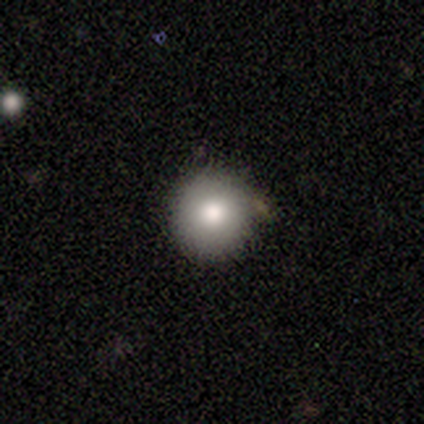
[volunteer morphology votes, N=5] Smooth or featured?
  - smooth: 100% *
  - featured or disk: 0%
  - star or artifact: 0%
How rounded?
  - round: 100% *
  - in between: 0%
  - cigar-shaped: 0%
Merging?
  - none: 100% *
  - minor disturbance: 0%
  - major disturbance: 0%
  - merger: 0%